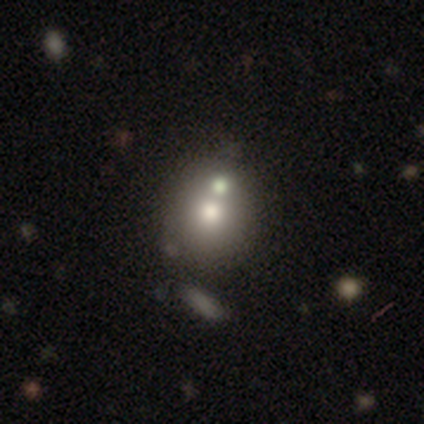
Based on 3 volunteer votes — A smooth galaxy with no disk features (100%) that is round (100%). Merging: none (67%).